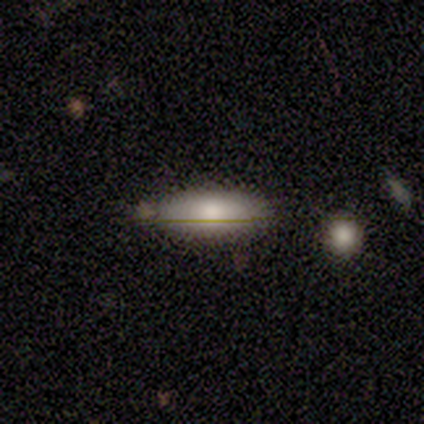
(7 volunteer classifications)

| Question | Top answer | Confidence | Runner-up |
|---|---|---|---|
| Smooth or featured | smooth | 71% | featured or disk (29%) |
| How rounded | in between | 60% | cigar-shaped (40%) |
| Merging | none | 100% | — |